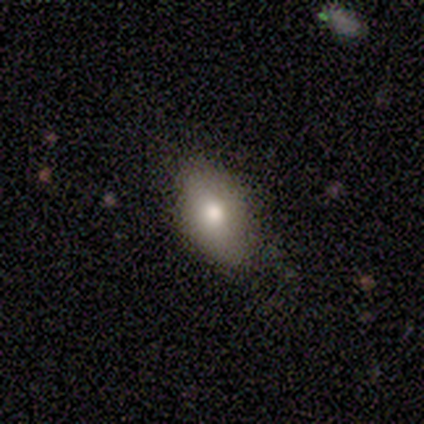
A smooth galaxy with no disk features (80%) that is in between round and cigar-shaped (100%). Merging: none (100%).